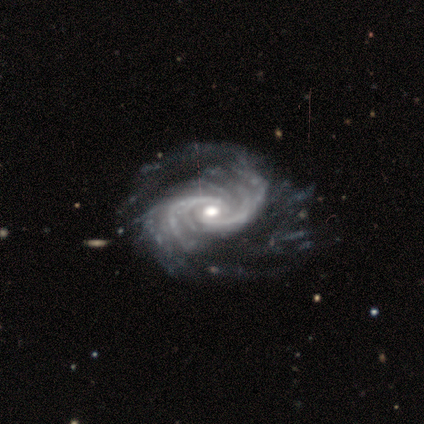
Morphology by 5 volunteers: Smooth or featured? featured or disk (100%)
Edge-on disk? no (100%)
Bar? no (100%)
Spiral arms? yes (100%)
Spiral winding? medium (60%)
Spiral arm count? more than 4 (60%)
Bulge size? moderate (60%)
Merging? none (60%)